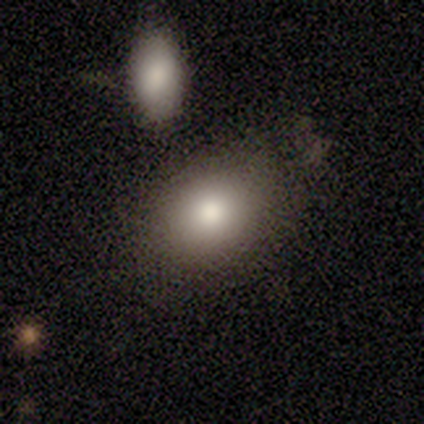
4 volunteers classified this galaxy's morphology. A smooth galaxy with no disk features (75%) that is in between round and cigar-shaped (67%).

Vote fractions:
- Smooth or featured? smooth: 75% / featured or disk: 25% / star or artifact: 0%
- How rounded? in between: 67% / round: 33% / cigar-shaped: 0%
- Merging? none: 75% / merger: 25% / minor disturbance: 0% / major disturbance: 0%